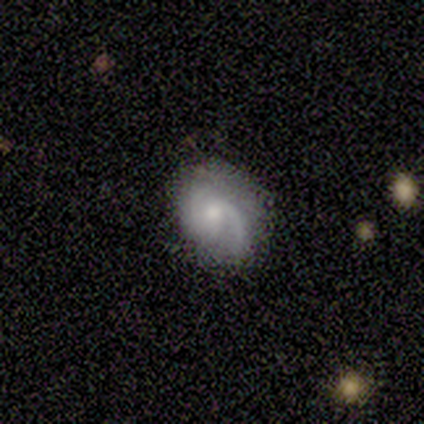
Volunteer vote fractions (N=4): Smooth or featured? featured or disk (75%)
Edge-on disk? no (100%)
Bar? no (67%)
Spiral arms? yes (100%)
Spiral winding? medium (67%)
Spiral arm count? 2 (67%)
Bulge size? moderate (67%)
Merging? minor disturbance (75%)